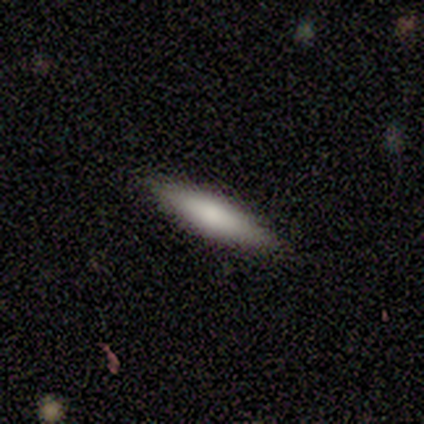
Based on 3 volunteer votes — Smooth or featured? 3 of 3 (100%) said smooth. How rounded? 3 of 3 (100%) said cigar-shaped. Merging? 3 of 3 (100%) said none.